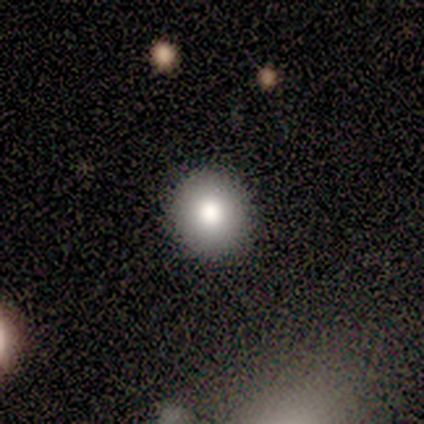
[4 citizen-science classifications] A smooth galaxy with no disk features (75%) that is round (100%). Merging: none (75%).